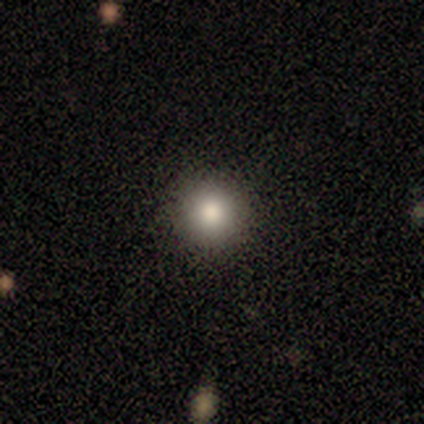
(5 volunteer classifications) Morphology: type=smooth (80%); roundness=round (100%); merging=none (100%).